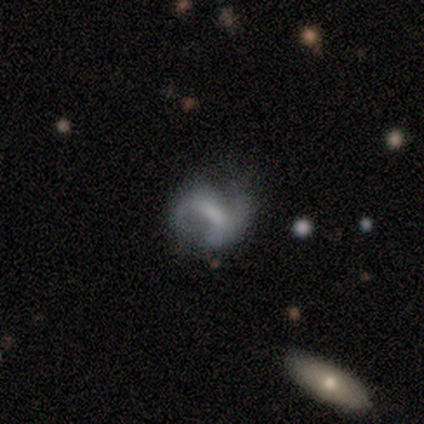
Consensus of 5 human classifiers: Morphology: type=featured or disk (60%); edge-on=no (100%); bar=strong (67%); spiral arms=yes (67%); winding=medium (50%, tied with loose); arm count=2 (100%); bulge=moderate (67%); merging=none (100%).